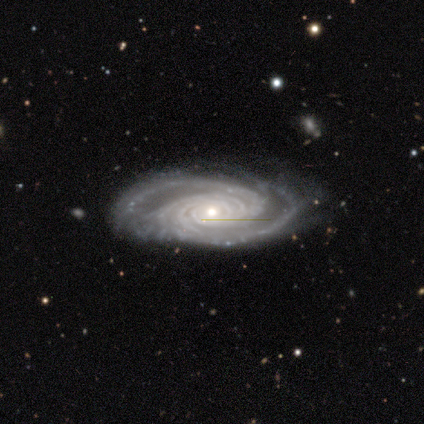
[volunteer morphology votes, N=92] Volunteers were most divided on "spiral arm count": 4: 24%, can't tell: 23%, 2: 19%, 3: 19%, more than 4: 15%, 1: 0%. Remaining: spiral arms — yes (99%); edge-on disk — no (97%); smooth or featured — featured or disk (96%); spiral winding — tight (92%); bar — no (80%); merging — none (74%); bulge size — small (49%).